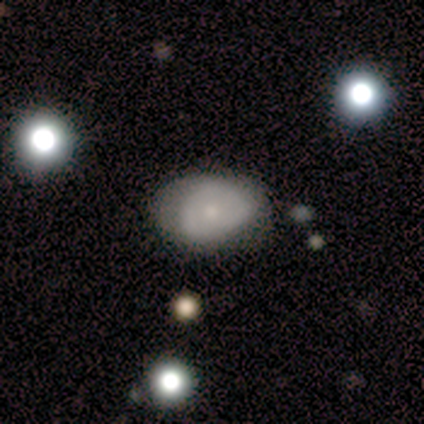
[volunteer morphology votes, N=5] Smooth or featured?
  - smooth: 80% *
  - featured or disk: 20%
  - star or artifact: 0%
How rounded?
  - in between: 100% *
  - round: 0%
  - cigar-shaped: 0%
Merging?
  - none: 60% *
  - minor disturbance: 40%
  - major disturbance: 0%
  - merger: 0%